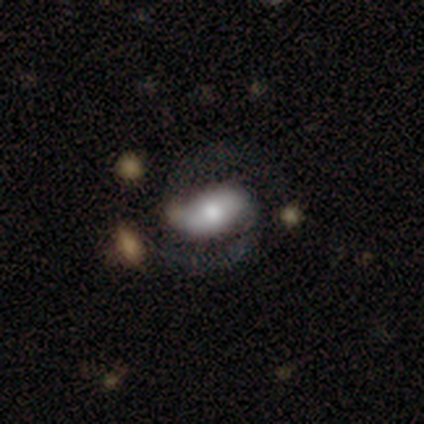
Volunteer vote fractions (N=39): Morphology: type=featured or disk (62%); edge-on=no (96%); bar=strong (57%); spiral arms=yes (100%); winding=medium (70%); arm count=2 (100%); bulge=moderate (39%); merging=none (36%).